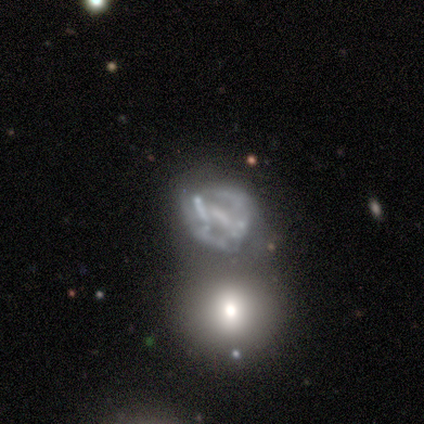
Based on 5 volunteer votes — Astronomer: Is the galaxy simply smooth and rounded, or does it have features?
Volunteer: featured or disk — 80%.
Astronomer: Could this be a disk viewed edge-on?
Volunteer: no — 100%.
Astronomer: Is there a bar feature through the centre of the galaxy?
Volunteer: weak — 75%.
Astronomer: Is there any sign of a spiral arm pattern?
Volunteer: yes — 75%.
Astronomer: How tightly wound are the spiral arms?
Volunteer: medium — 67%.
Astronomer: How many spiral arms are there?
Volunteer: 2 — 33%, tied with 4 and can't tell at 33%.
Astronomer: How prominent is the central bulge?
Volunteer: none — 75%.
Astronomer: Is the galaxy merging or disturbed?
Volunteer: minor disturbance — 40%, tied with merger at 40%.